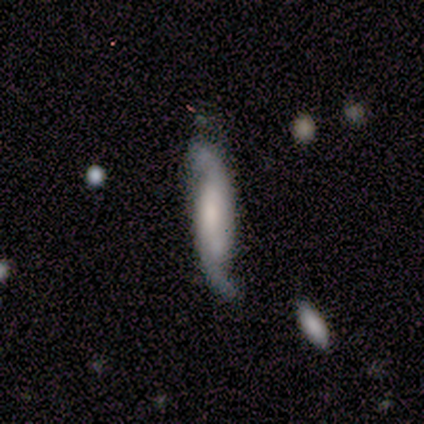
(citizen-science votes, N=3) Smooth or featured? 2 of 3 (67%) said featured or disk. Edge-on disk? 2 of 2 (100%) said no. Bar? 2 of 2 (100%) said no. Spiral arms? 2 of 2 (100%) said yes. Spiral winding? 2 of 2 (100%) said loose. Spiral arm count? 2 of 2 (100%) said 2. Bulge size? 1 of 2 (50%, tied with none) said small. Merging? 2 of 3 (67%) said none.